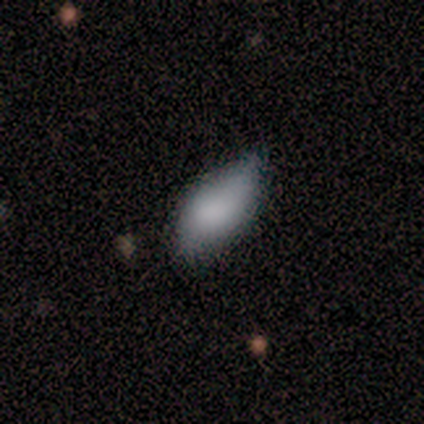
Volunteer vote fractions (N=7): Q: Smooth or featured?
A: smooth (43%); tied with: star or artifact (43%)
Q: How rounded?
A: in between (67%); runner-up: cigar-shaped (33%)
Q: Merging?
A: minor disturbance (75%); runner-up: none (25%)